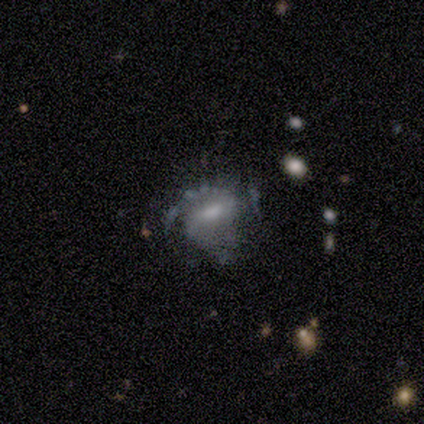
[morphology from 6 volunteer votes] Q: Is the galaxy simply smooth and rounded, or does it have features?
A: featured or disk — 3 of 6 (50%).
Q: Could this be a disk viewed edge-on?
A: no — 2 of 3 (67%).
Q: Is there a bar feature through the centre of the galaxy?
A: weak — 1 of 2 (50%, tied with no).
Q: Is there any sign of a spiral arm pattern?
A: yes — 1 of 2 (50%, tied with no).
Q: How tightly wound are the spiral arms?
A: loose — 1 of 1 (100%).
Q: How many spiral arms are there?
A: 1 — 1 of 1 (100%).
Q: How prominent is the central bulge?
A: moderate — 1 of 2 (50%, tied with none).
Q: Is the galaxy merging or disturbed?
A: minor disturbance — 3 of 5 (60%).